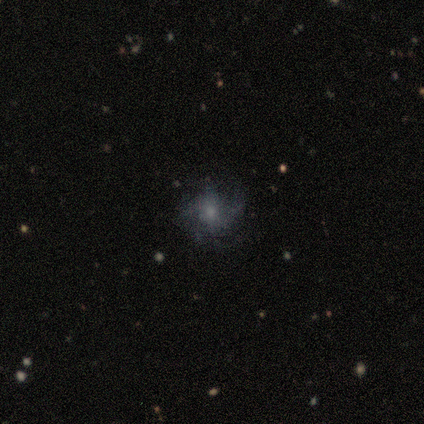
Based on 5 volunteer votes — Smooth or featured? 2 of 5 (40%, tied with featured or disk) said smooth. How rounded? 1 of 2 (50%, tied with in between) said round. Merging? 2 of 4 (50%) said minor disturbance.